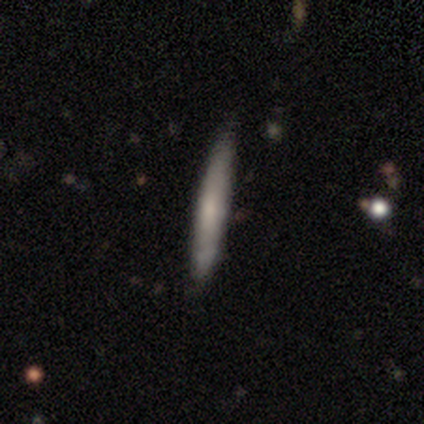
Smooth or featured?
  - smooth: 53% *
  - featured or disk: 42%
  - star or artifact: 5%
How rounded?
  - cigar-shaped: 100% *
  - round: 0%
  - in between: 0%
Merging?
  - none: 72% *
  - minor disturbance: 28%
  - major disturbance: 0%
  - merger: 0%